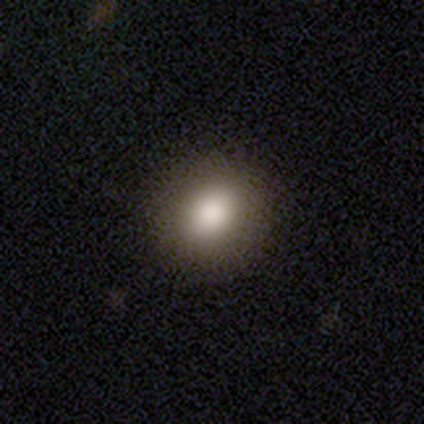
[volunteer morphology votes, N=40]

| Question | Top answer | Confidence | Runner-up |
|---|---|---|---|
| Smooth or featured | smooth | 88% | star or artifact (8%) |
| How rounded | round | 89% | in between (11%) |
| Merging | none | 62% | — |